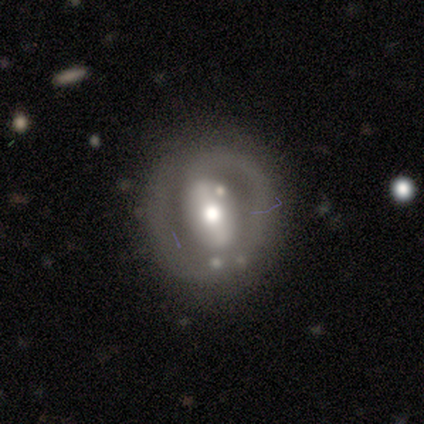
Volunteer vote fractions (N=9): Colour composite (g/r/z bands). It shows a featured or disk galaxy (78%) with a weak bar (43%), no spiral arms (71%) and a moderate central bulge (57%). Merging: none (62%).